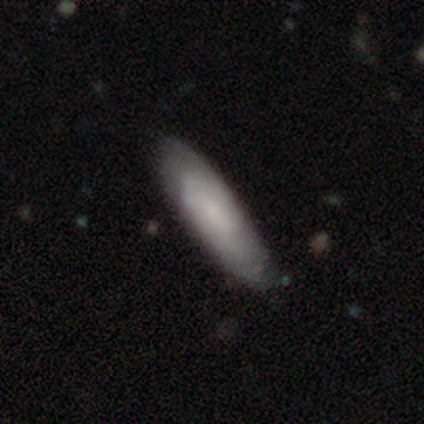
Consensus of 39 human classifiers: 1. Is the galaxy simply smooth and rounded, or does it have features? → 56% smooth, 33% featured or disk, 10% star or artifact.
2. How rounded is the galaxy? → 50% in between (tied), 50% cigar-shaped (tied), 0% round.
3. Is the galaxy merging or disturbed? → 77% none, 17% minor disturbance, 6% major disturbance, 0% merger.